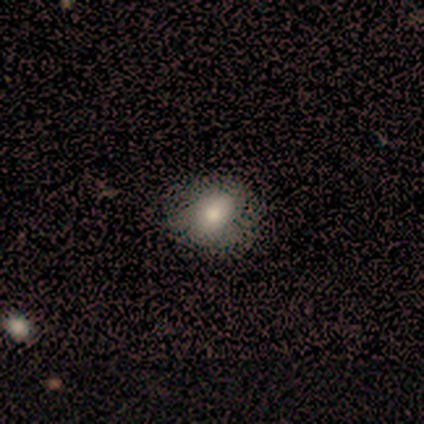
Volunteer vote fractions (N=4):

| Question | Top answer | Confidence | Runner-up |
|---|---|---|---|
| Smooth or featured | smooth | 100% | — |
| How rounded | round | 50% | tied: in between (50%) |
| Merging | none | 75% | minor disturbance (25%) |